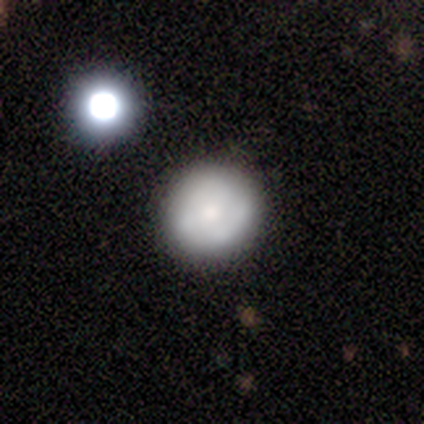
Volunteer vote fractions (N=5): Smooth or featured? 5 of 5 (100%) said smooth. How rounded? 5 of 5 (100%) said round. Merging? 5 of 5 (100%) said none.